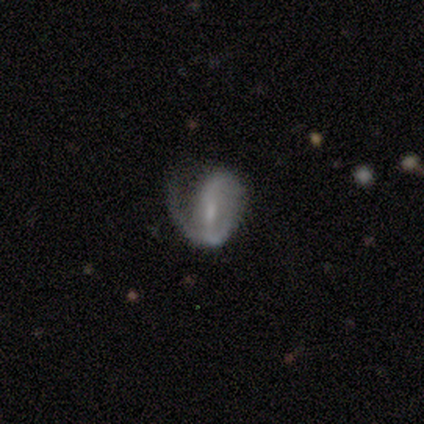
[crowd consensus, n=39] Q: Smooth or featured?
A: featured or disk (64%); runner-up: smooth (21%)
Q: Edge-on disk?
A: no (100%)
Q: Bar?
A: weak (44%); runner-up: no (32%)
Q: Spiral arms?
A: yes (92%); runner-up: no (8%)
Q: Spiral winding?
A: tight (39%); runner-up: loose (35%)
Q: Spiral arm count?
A: 1 (57%); runner-up: can't tell (22%)
Q: Bulge size?
A: small (48%); runner-up: none (24%)
Q: Merging?
A: major disturbance (45%); runner-up: none (27%)